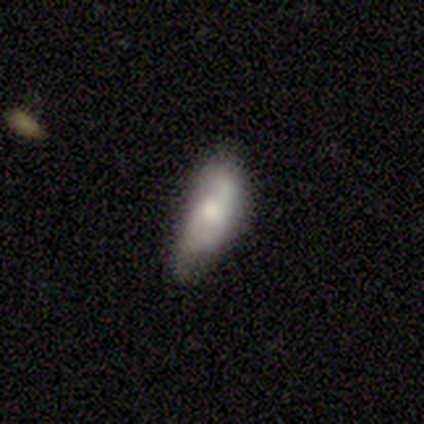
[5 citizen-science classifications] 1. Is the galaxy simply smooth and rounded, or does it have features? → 60% smooth, 40% featured or disk, 0% star or artifact.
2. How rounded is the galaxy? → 100% in between, 0% round, 0% cigar-shaped.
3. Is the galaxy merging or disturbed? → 80% minor disturbance, 20% none, 0% major disturbance, 0% merger.